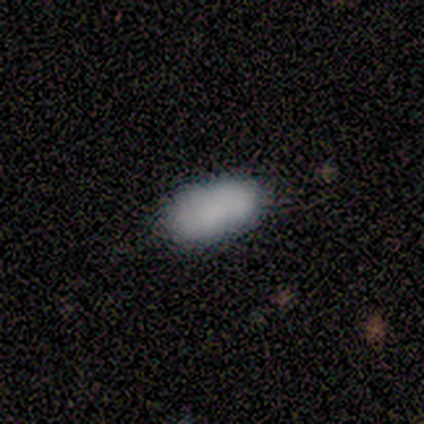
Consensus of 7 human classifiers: A smooth galaxy with no disk features (57%) that is in between round and cigar-shaped (50%, tied with cigar-shaped).

Vote fractions:
- Smooth or featured? smooth: 57% / featured or disk: 29% / star or artifact: 14%
- How rounded? in between: 50% (tied) / cigar-shaped: 50% (tied) / round: 0%
- Merging? none: 83% / minor disturbance: 17% / major disturbance: 0% / merger: 0%